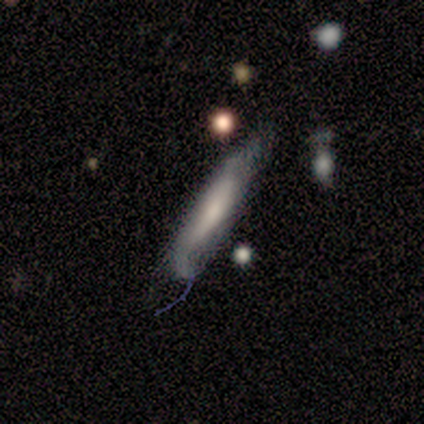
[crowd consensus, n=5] Q: Smooth or featured?
A: smooth (100%)
Q: How rounded?
A: cigar-shaped (100%)
Q: Merging?
A: minor disturbance (40%); runner-up: none (20%)